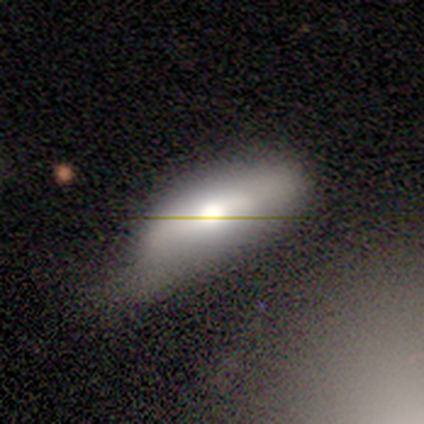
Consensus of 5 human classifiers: Smooth or featured?
  - smooth: 80% *
  - featured or disk: 20%
  - star or artifact: 0%
How rounded?
  - in between: 100% *
  - round: 0%
  - cigar-shaped: 0%
Merging?
  - none: 60% *
  - minor disturbance: 20%
  - major disturbance: 20%
  - merger: 0%